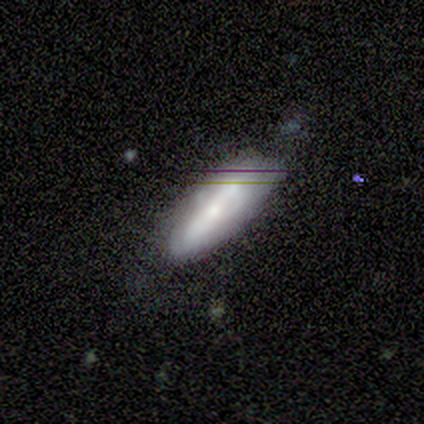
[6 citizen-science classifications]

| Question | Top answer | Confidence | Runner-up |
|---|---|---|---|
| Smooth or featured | featured or disk | 50% | star or artifact (33%) |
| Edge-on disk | no | 67% | yes (33%) |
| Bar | strong | 50% | tied: no (50%) |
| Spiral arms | yes | 50% | tied: no (50%) |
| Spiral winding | tight | 100% | — |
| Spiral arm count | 2 | 100% | — |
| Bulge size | moderate | 100% | — |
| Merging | none | 75% | major disturbance (25%) |